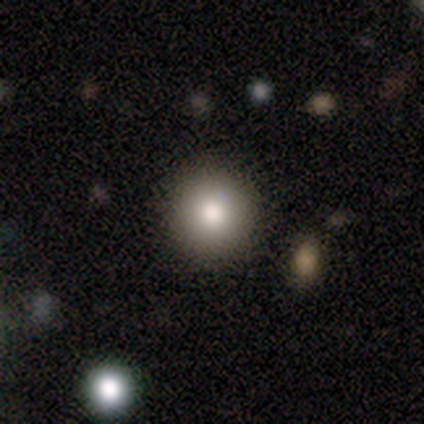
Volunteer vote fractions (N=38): smooth_or_featured: smooth (p=0.84) [alt: star or artifact p=0.11]
how_rounded: round (p=0.84) [alt: in between p=0.12]
merging: none (p=0.91) [alt: minor disturbance p=0.06]